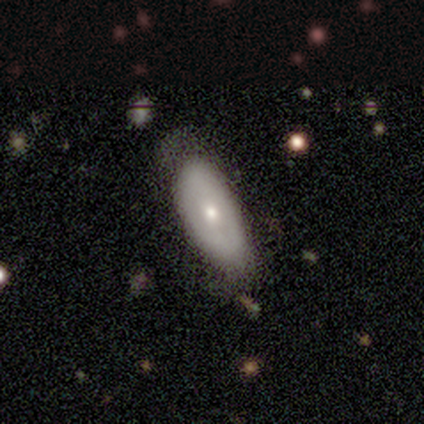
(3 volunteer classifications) Q: Smooth or featured?
A: featured or disk (67%); runner-up: star or artifact (33%)
Q: Edge-on disk?
A: no (100%)
Q: Bar?
A: no (100%)
Q: Spiral arms?
A: no (100%)
Q: Bulge size?
A: moderate (50%); tied with: small (50%)
Q: Merging?
A: minor disturbance (100%)